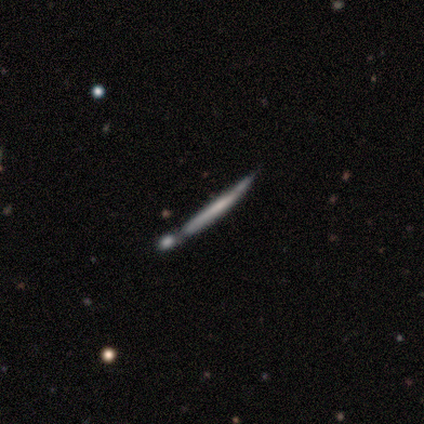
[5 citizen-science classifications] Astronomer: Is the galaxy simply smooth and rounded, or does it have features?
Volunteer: featured or disk — 80%.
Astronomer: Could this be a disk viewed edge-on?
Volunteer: yes — 100%.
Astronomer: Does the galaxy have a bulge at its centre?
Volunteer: none — 75%.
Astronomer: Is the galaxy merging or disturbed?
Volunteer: minor disturbance — 60%.